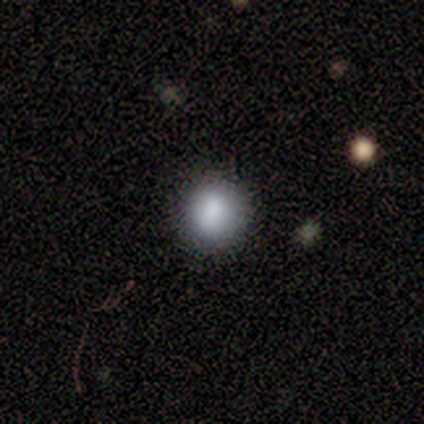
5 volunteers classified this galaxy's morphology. Smooth or featured: smooth — 100%
How rounded: round — 100%
Merging: none — 100%